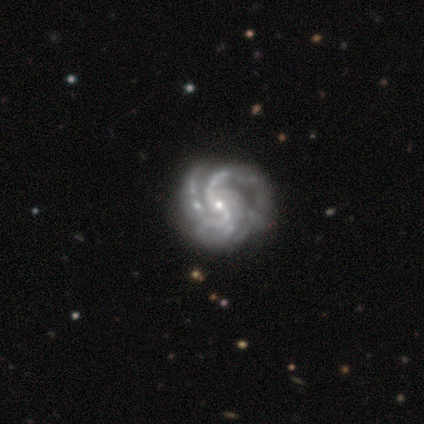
Smooth or featured? 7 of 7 (100%) said featured or disk. Edge-on disk? 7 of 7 (100%) said no. Bar? 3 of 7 (43%) said no. Spiral arms? 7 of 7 (100%) said yes. Spiral winding? 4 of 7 (57%) said medium. Spiral arm count? 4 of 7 (57%) said 2. Bulge size? 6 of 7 (86%) said small. Merging? 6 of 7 (86%) said none.